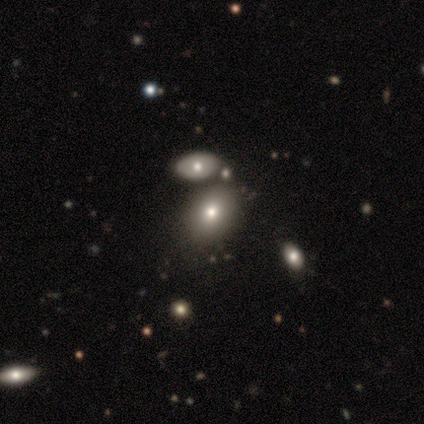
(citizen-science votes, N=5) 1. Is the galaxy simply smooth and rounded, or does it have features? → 80% smooth, 20% star or artifact, 0% featured or disk.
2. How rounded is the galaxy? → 100% in between, 0% round, 0% cigar-shaped.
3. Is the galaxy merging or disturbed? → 100% none, 0% minor disturbance, 0% major disturbance, 0% merger.